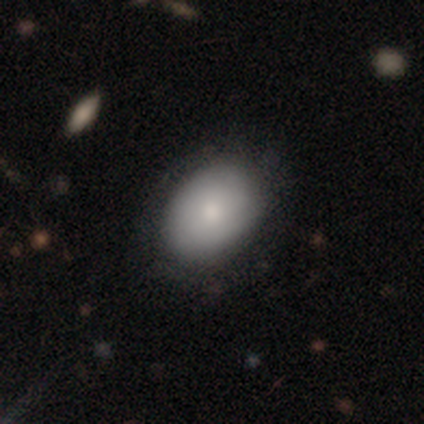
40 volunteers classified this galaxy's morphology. Smooth or featured? 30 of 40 (75%) said smooth. How rounded? 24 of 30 (80%) said in between. Merging? 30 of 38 (79%) said none.